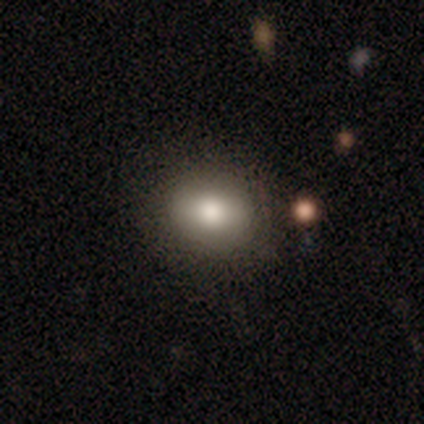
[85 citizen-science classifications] A smooth galaxy with no disk features (75%) that is round (61%).

Vote fractions:
- Smooth or featured? smooth: 75% / star or artifact: 13% / featured or disk: 12%
- How rounded? round: 61% / in between: 39% / cigar-shaped: 0%
- Merging? none: 86% / minor disturbance: 9% / major disturbance: 4% / merger: 0%